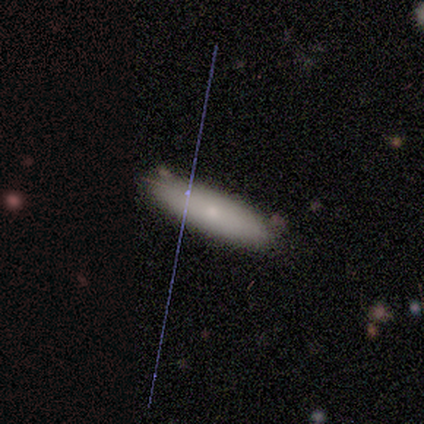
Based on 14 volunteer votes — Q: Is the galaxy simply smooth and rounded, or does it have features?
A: smooth — 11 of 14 (79%).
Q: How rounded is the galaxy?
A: cigar-shaped — 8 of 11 (73%).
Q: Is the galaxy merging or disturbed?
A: none — 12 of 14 (86%).